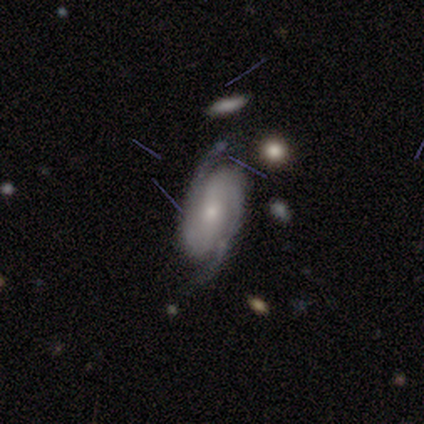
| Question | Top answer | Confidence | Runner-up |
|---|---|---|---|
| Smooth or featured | featured or disk | 77% | star or artifact (15%) |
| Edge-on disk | no | 90% | yes (10%) |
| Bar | no | 59% | strong (26%) |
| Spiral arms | yes | 100% | — |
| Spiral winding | tight | 56% | medium (37%) |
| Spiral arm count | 2 | 93% | 3 (4%) |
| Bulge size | small | 74% | moderate (22%) |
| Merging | none | 79% | minor disturbance (18%) |